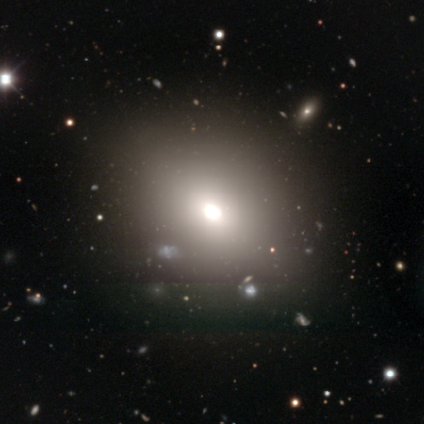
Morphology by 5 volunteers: Smooth or featured: smooth — 80% (featured or disk — 20%)
How rounded: in between — 75% (round — 25%)
Merging: none — 100%